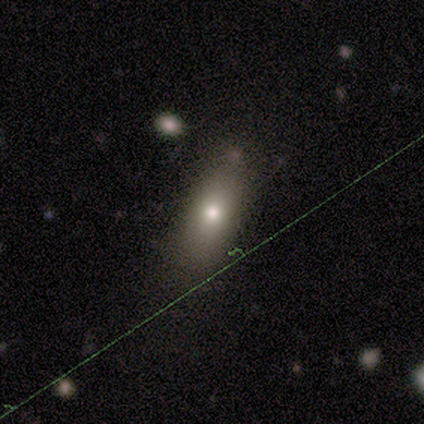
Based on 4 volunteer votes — Q: Smooth or featured?
A: smooth (75%); runner-up: featured or disk (25%)
Q: How rounded?
A: in between (67%); runner-up: cigar-shaped (33%)
Q: Merging?
A: none (100%)